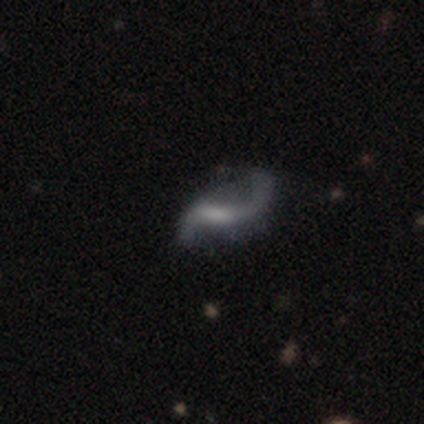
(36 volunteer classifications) Morphology: type=featured or disk (75%); edge-on=no (96%); bar=weak (73%); spiral arms=yes (88%); winding=loose (87%); arm count=2 (87%); bulge=none (38%); merging=none (45%).